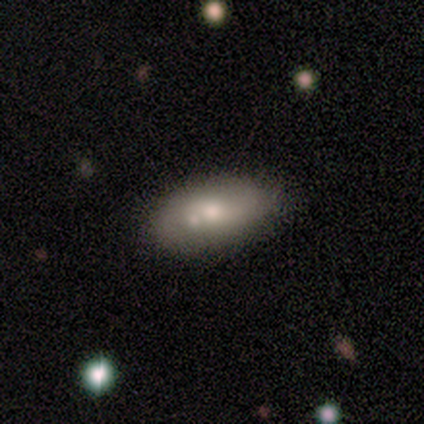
Smooth or featured: smooth — 88% (featured or disk — 12%)
How rounded: in between — 86% (cigar-shaped — 14%)
Merging: none — 50% (merger — 38%)